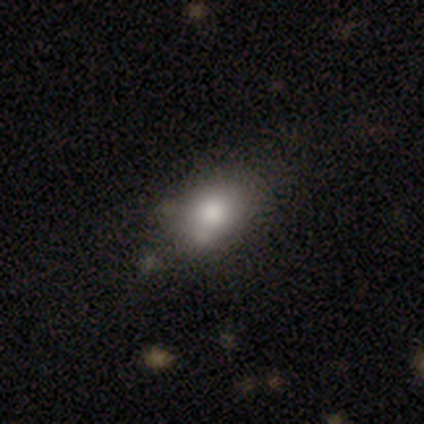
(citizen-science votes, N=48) Morphology: type=smooth (79%); roundness=in between (79%); merging=none (62%).